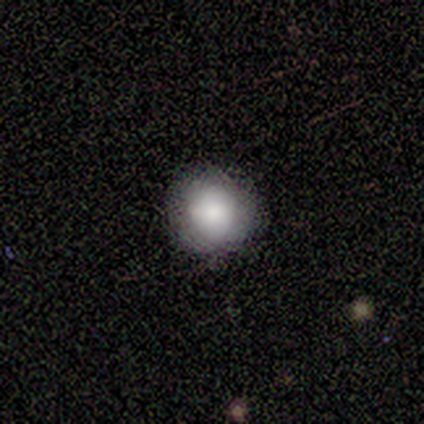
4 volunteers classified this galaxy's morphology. type=smooth (50%); roundness=round (100%); merging=none (100%).